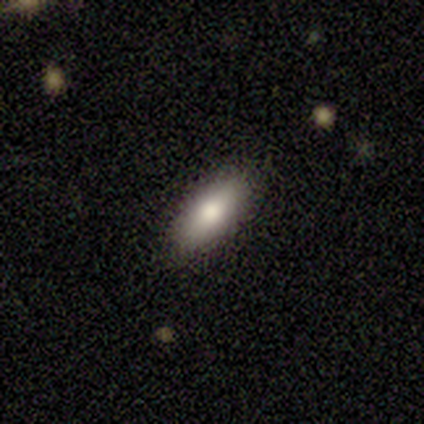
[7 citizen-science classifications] A smooth galaxy with no disk features (57%) that is in between round and cigar-shaped (100%). Merging: none (86%).